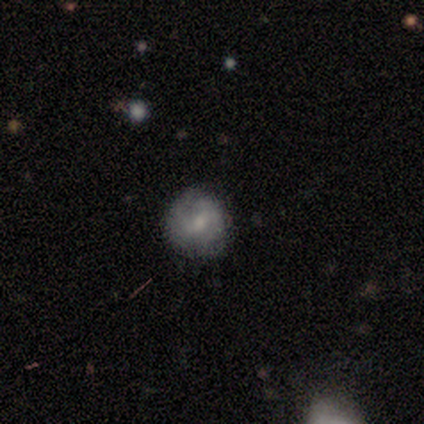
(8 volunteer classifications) smooth-or-featured: smooth: 75% | featured or disk: 25% | star or artifact: 0%
  how-rounded: round: 100% | in between: 0% | cigar-shaped: 0%
  merging: none: 62% | minor disturbance: 12% | major disturbance: 12% | merger: 12%